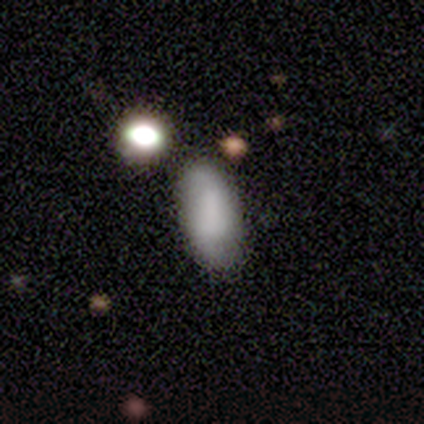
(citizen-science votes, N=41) Smooth or featured?
  - smooth: 63% *
  - featured or disk: 29%
  - star or artifact: 7%
How rounded?
  - in between: 92% *
  - cigar-shaped: 8%
  - round: 0%
Merging?
  - none: 58% *
  - minor disturbance: 16%
  - merger: 16%
  - major disturbance: 11%